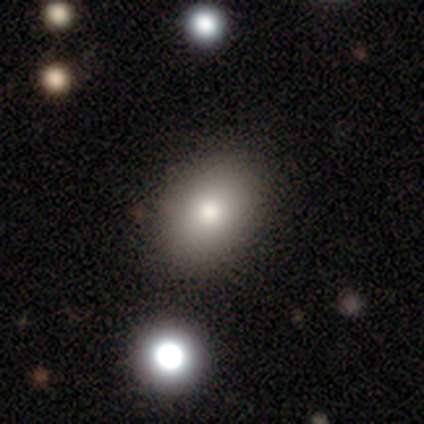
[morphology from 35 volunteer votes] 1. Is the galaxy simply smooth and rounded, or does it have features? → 74% smooth, 14% featured or disk, 11% star or artifact.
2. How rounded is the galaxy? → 73% in between, 27% round, 0% cigar-shaped.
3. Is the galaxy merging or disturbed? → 68% none, 6% merger, 3% minor disturbance, 0% major disturbance.